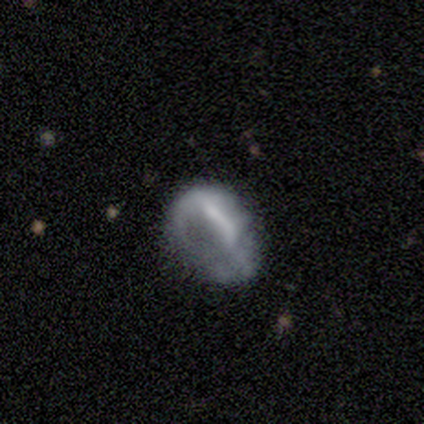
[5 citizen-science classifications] Volunteers were most divided on "smooth or featured": featured or disk: 60%, smooth: 40%, star or artifact: 0%. More confident: edge-on disk — no (100%); bar — no (67%); spiral arms — no (67%); bulge size — none (67%); merging — major disturbance (60%).